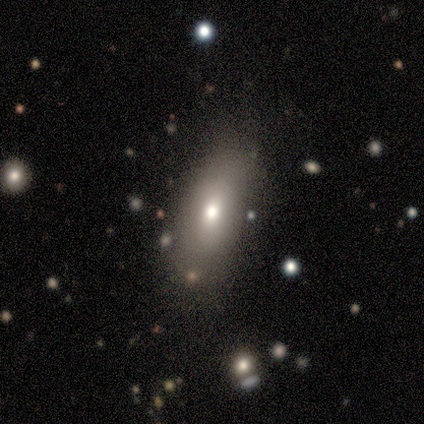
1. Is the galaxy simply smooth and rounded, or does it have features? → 80% smooth, 20% featured or disk, 0% star or artifact.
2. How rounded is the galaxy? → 75% in between, 25% cigar-shaped, 0% round.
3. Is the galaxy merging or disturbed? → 80% none, 20% minor disturbance, 0% major disturbance, 0% merger.